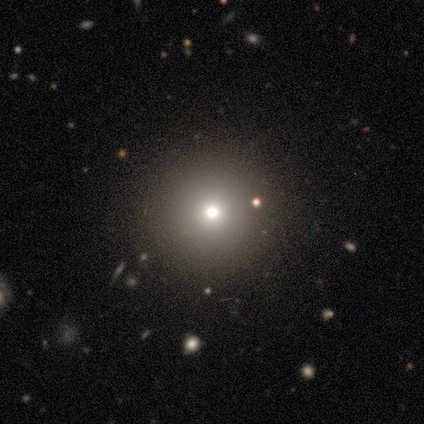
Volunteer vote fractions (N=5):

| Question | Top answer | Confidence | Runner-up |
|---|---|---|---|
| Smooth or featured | smooth | 40% | tied: star or artifact (40%) |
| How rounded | round | 100% | — |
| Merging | none | 100% | — |